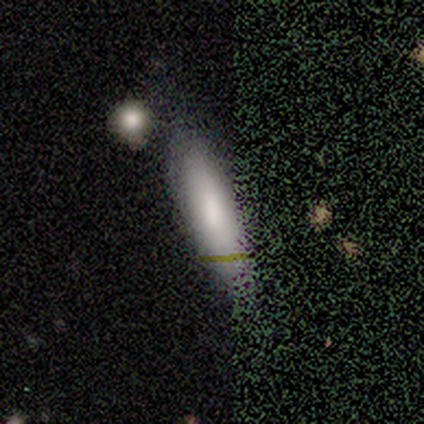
smooth 85%, star or artifact 15%, featured or disk 0%. Down the decision tree: how rounded — in between (45%, tied with cigar-shaped); merging — none (73%).